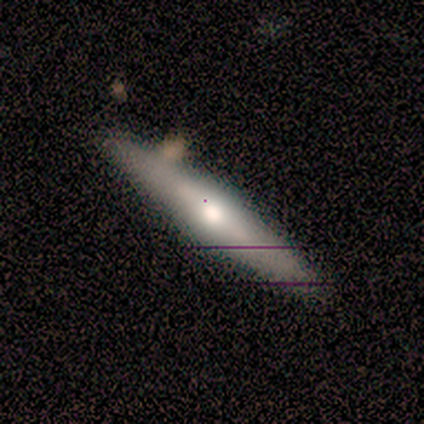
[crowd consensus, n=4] Smooth or featured?
  - featured or disk: 100% *
  - smooth: 0%
  - star or artifact: 0%
Edge-on disk?
  - yes: 100% *
  - no: 0%
Edge-on bulge?
  - rounded: 100% *
  - boxy: 0%
  - none: 0%
Merging?
  - none: 75% *
  - minor disturbance: 25%
  - major disturbance: 0%
  - merger: 0%